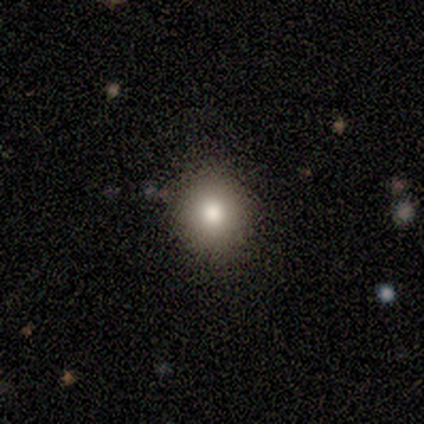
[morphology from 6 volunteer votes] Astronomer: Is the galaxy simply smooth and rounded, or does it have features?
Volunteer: smooth — 100%.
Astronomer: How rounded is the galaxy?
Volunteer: round — 83%.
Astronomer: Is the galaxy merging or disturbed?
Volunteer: none — 100%.